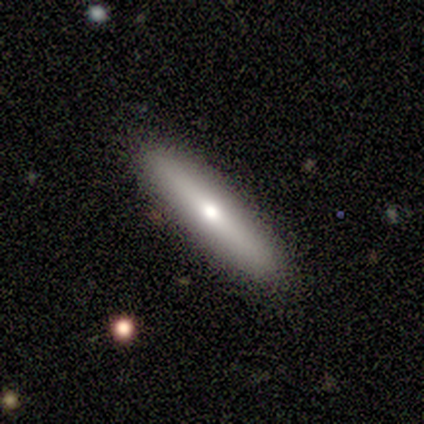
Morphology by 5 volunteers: type=smooth (80%); roundness=cigar-shaped (100%); merging=none (80%).